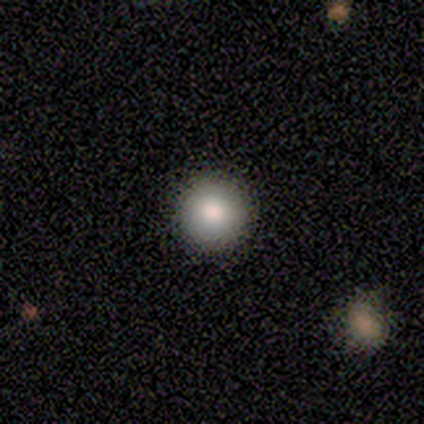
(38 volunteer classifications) smooth 79%, featured or disk 13%, star or artifact 8%. Down the decision tree: how rounded — round (100%); merging — none (80%).